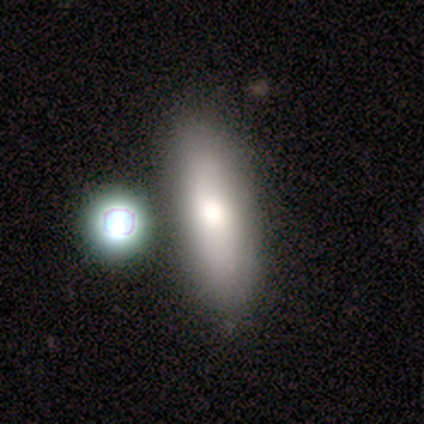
Q: Smooth or featured?
A: smooth (80%); runner-up: star or artifact (20%)
Q: How rounded?
A: in between (50%); tied with: cigar-shaped (50%)
Q: Merging?
A: none (75%); runner-up: minor disturbance (25%)